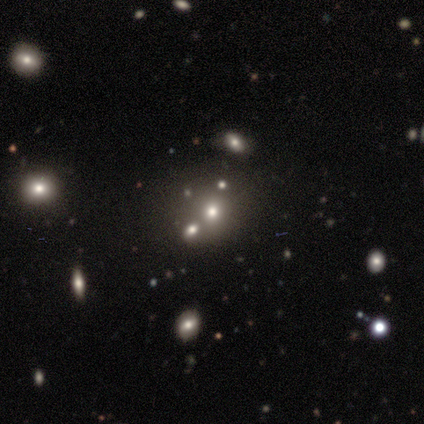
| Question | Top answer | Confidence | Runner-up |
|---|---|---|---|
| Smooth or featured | smooth | 67% | featured or disk (17%) |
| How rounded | round | 100% | — |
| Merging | none | 80% | merger (20%) |